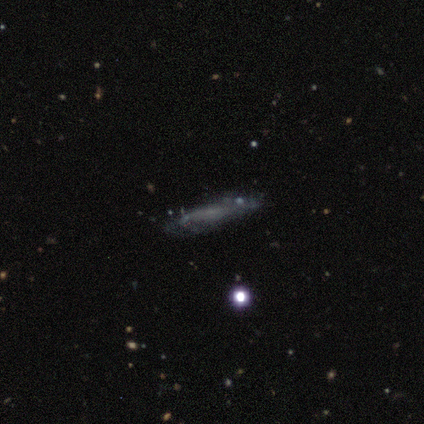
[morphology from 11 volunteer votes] A featured or disk galaxy (82%) with no bar (57%), 1 (33%, tied with 2 and can't tell) medium (50%) spiral arms (86%) and no central bulge (57%). Merging: none (60%).